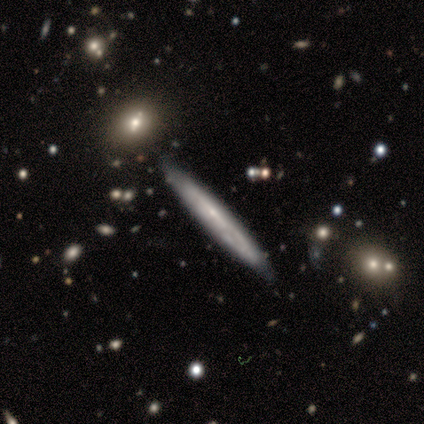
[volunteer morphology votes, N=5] A featured or disk galaxy (80%) viewed edge-on (50%, tied with no) with no central bulge (100%).

Vote fractions:
- Smooth or featured? featured or disk: 80% / star or artifact: 20% / smooth: 0%
- Edge-on disk? yes: 50% (tied) / no: 50% (tied)
- Edge-on bulge? none: 100% / boxy: 0% / rounded: 0%
- Merging? minor disturbance: 75% / none: 25% / major disturbance: 0% / merger: 0%